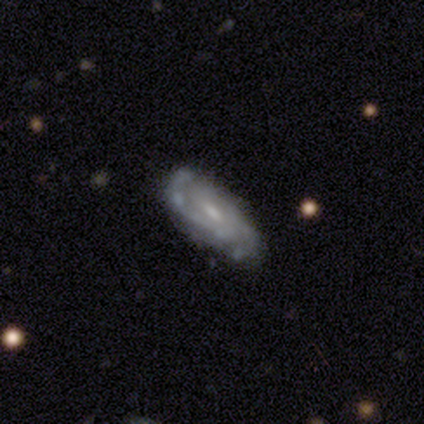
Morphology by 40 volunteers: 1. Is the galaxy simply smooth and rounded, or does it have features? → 75% featured or disk, 15% smooth, 10% star or artifact.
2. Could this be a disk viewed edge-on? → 90% no, 10% yes.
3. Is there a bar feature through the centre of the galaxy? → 48% no, 44% weak, 7% strong.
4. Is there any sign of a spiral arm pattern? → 78% yes, 22% no.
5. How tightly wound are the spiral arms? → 57% tight, 29% medium, 14% loose.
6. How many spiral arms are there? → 38% can't tell, 33% 2, 14% 3, 10% 4, 5% 1, 0% more than 4.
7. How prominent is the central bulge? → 44% moderate (tied), 44% small (tied), 11% none, 0% dominant, 0% large.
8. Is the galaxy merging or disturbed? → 64% none, 28% minor disturbance, 6% major disturbance, 3% merger.